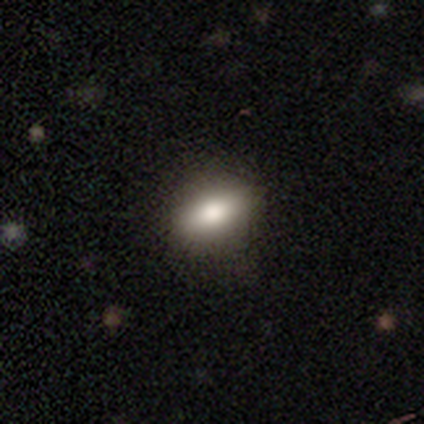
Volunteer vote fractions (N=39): A smooth galaxy with no disk features (72%) that is in between round and cigar-shaped (82%).

Vote fractions:
- Smooth or featured? smooth: 72% / featured or disk: 23% / star or artifact: 5%
- How rounded? in between: 82% / round: 11% / cigar-shaped: 7%
- Merging? none: 81% / minor disturbance: 14% / major disturbance: 5% / merger: 0%